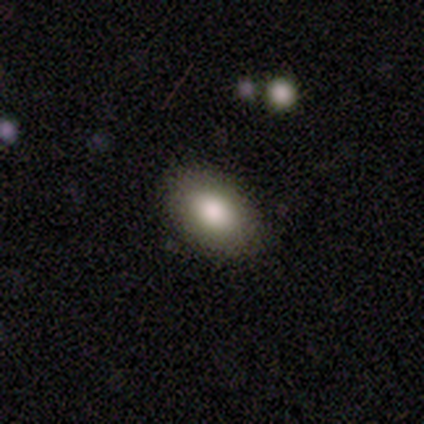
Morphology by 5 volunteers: Smooth or featured?
  - smooth: 60% *
  - featured or disk: 40%
  - star or artifact: 0%
How rounded?
  - in between: 100% *
  - round: 0%
  - cigar-shaped: 0%
Merging?
  - none: 80% *
  - minor disturbance: 20%
  - major disturbance: 0%
  - merger: 0%